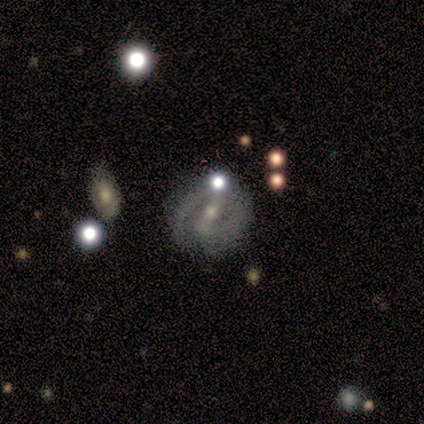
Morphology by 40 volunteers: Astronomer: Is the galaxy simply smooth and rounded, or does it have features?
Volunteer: featured or disk — 90%.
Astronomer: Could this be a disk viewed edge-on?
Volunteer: no — 97%.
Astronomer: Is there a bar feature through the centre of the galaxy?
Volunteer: strong — 49% (runner-up: weak, 43%).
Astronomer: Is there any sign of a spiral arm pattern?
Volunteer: yes — 94%.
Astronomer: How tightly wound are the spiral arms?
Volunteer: tight — 55% (runner-up: medium, 39%).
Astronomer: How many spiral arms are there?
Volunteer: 2 — 82%.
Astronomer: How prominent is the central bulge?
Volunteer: small — 54% (runner-up: moderate, 46%).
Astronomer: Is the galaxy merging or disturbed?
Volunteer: none — 66%.